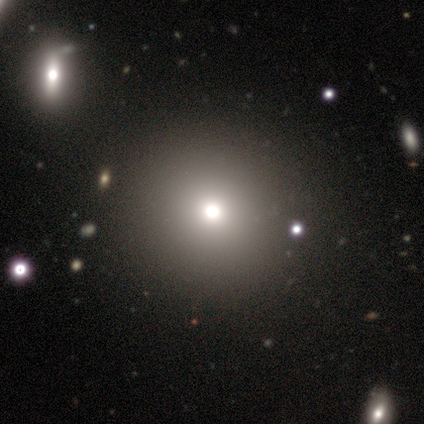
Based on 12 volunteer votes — A smooth galaxy with no disk features (50%) that is round (100%).

Vote fractions:
- Smooth or featured? smooth: 50% / star or artifact: 42% / featured or disk: 8%
- How rounded? round: 100% / in between: 0% / cigar-shaped: 0%
- Merging? none: 100% / minor disturbance: 0% / major disturbance: 0% / merger: 0%